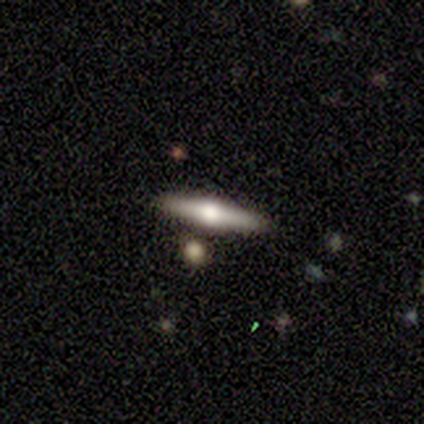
A featured or disk galaxy (100%) viewed edge-on (80%) with a rounded central bulge (100%).

Vote fractions:
- Smooth or featured? featured or disk: 100% / smooth: 0% / star or artifact: 0%
- Edge-on disk? yes: 80% / no: 20%
- Edge-on bulge? rounded: 100% / boxy: 0% / none: 0%
- Merging? none: 80% / major disturbance: 20% / minor disturbance: 0% / merger: 0%